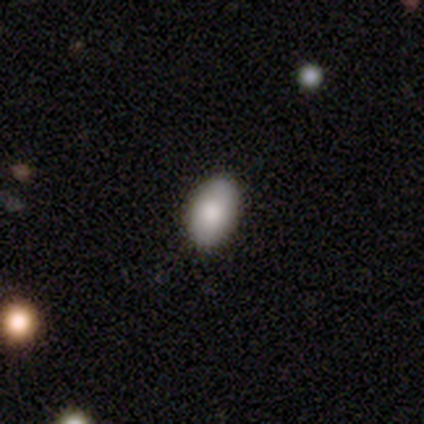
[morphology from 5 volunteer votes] Smooth or featured?
  - smooth: 100% *
  - featured or disk: 0%
  - star or artifact: 0%
How rounded?
  - in between: 80% *
  - round: 20%
  - cigar-shaped: 0%
Merging?
  - none: 80% *
  - minor disturbance: 20%
  - major disturbance: 0%
  - merger: 0%